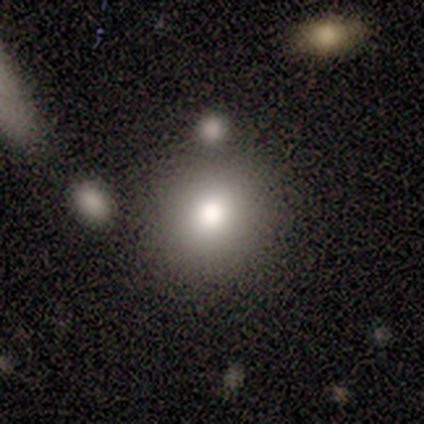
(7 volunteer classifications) Smooth or featured?
  - smooth: 71% *
  - featured or disk: 14%
  - star or artifact: 14%
How rounded?
  - round: 80% *
  - in between: 20%
  - cigar-shaped: 0%
Merging?
  - none: 83% *
  - minor disturbance: 17%
  - major disturbance: 0%
  - merger: 0%